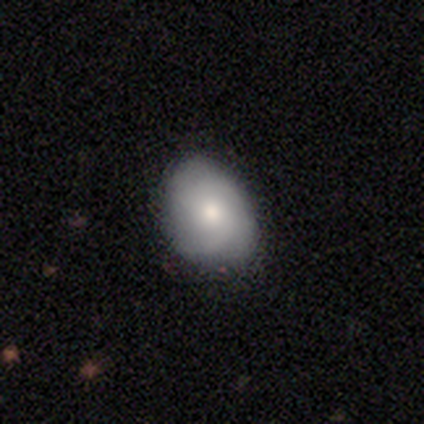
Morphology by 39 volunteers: A smooth galaxy with no disk features (62%) that is in between round and cigar-shaped (67%).

Vote fractions:
- Smooth or featured? smooth: 62% / featured or disk: 28% / star or artifact: 10%
- How rounded? in between: 67% / round: 33% / cigar-shaped: 0%
- Merging? none: 69% / minor disturbance: 31% / major disturbance: 0% / merger: 0%